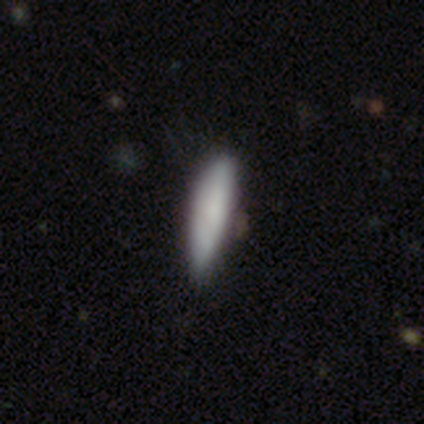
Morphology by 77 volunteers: smooth-or-featured: smooth: 78% | featured or disk: 19% | star or artifact: 3%
  how-rounded: cigar-shaped: 57% | in between: 43% | round: 0%
  merging: none: 31% | minor disturbance: 21% | merger: 3% | major disturbance: 0%